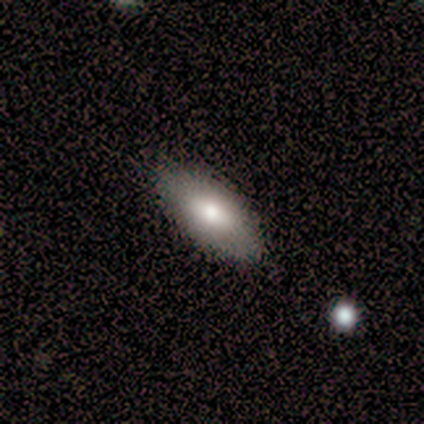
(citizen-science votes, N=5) Smooth or featured? smooth (60%)
How rounded? in between (67%)
Merging? none (100%)